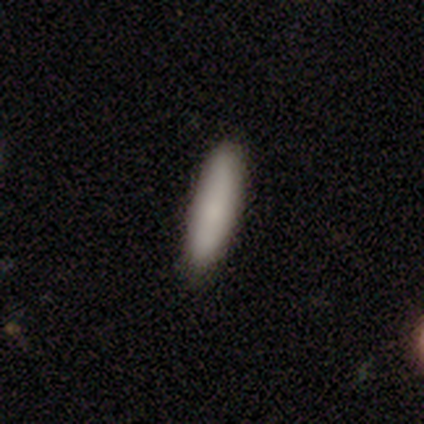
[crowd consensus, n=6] smooth_or_featured: smooth (p=0.83) [alt: featured or disk p=0.17]
how_rounded: cigar-shaped (p=1.00)
merging: none (p=0.83) [alt: minor disturbance p=0.17]